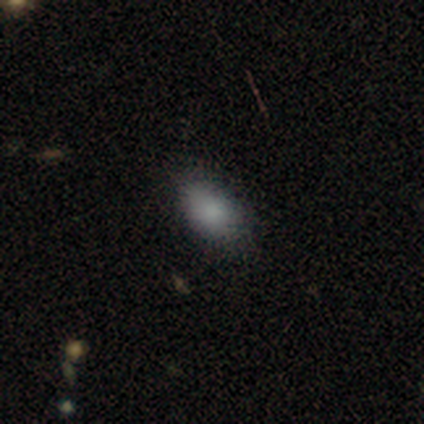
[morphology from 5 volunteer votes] Volunteers were most divided on "merging": none: 60%, minor disturbance: 40%, major disturbance: 0%, merger: 0%. More confident: smooth or featured — smooth (100%); how rounded — in between (80%).